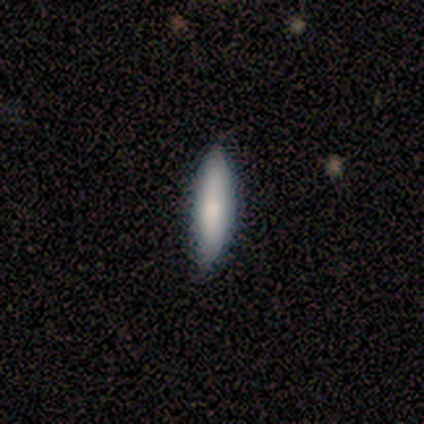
smooth-or-featured: smooth: 60% | featured or disk: 40% | star or artifact: 0%
  how-rounded: cigar-shaped: 67% | in between: 33% | round: 0%
  merging: none: 60% | minor disturbance: 40% | major disturbance: 0% | merger: 0%